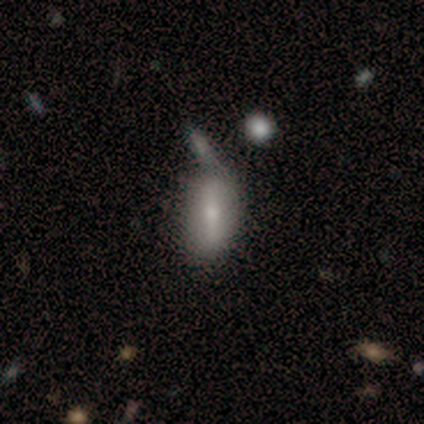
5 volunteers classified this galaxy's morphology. featured or disk 60%, smooth 40%, star or artifact 0%. Down the decision tree: edge-on disk — no (100%); bar — strong (100%); spiral arms — no (100%); bulge size — large (33%, tied with small and none); merging — merger (80%).